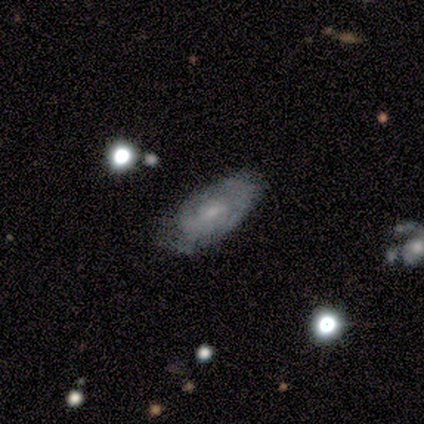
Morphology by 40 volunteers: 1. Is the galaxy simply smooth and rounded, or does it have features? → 62% featured or disk, 28% smooth, 10% star or artifact.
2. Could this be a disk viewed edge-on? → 92% no, 8% yes.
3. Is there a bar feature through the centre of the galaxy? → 65% no, 35% weak, 0% strong.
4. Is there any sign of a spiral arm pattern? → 83% yes, 17% no.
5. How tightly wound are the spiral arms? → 63% tight, 21% medium, 16% loose.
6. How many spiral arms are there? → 53% 2, 37% can't tell, 5% 1, 5% 4, 0% 3, 0% more than 4.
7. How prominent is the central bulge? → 61% small, 26% moderate, 13% none, 0% dominant, 0% large.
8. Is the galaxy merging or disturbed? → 44% none, 39% minor disturbance, 14% major disturbance, 3% merger.